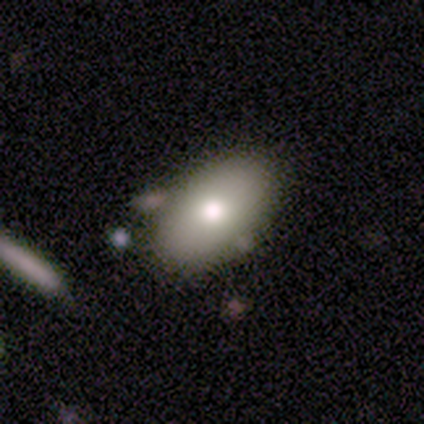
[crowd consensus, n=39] Q: Smooth or featured?
A: smooth (72%); runner-up: featured or disk (15%)
Q: How rounded?
A: in between (93%); runner-up: round (4%)
Q: Merging?
A: none (79%); runner-up: minor disturbance (9%)